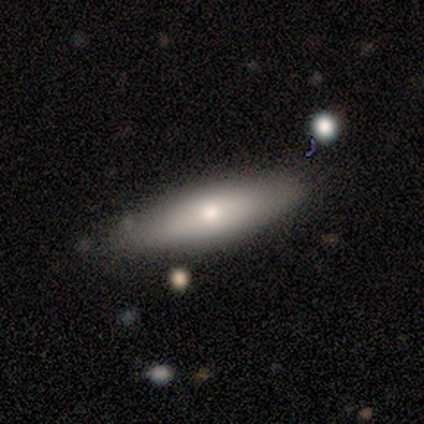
A featured or disk galaxy (60%) viewed edge-on (100%) with a rounded central bulge (100%).

Vote fractions:
- Smooth or featured? featured or disk: 60% / smooth: 40% / star or artifact: 0%
- Edge-on disk? yes: 100% / no: 0%
- Edge-on bulge? rounded: 100% / boxy: 0% / none: 0%
- Merging? none: 80% / major disturbance: 20% / minor disturbance: 0% / merger: 0%